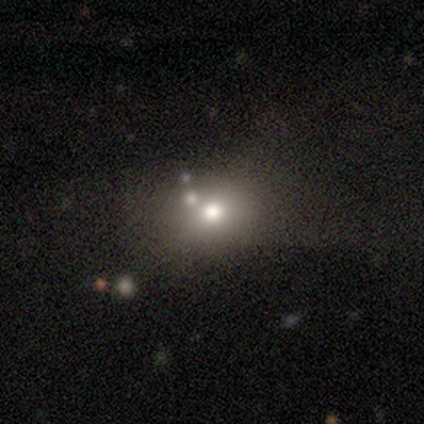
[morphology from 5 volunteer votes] Smooth or featured: smooth — 60% (star or artifact — 40%)
How rounded: round — 100%
Merging: none — 67% (minor disturbance — 33%)